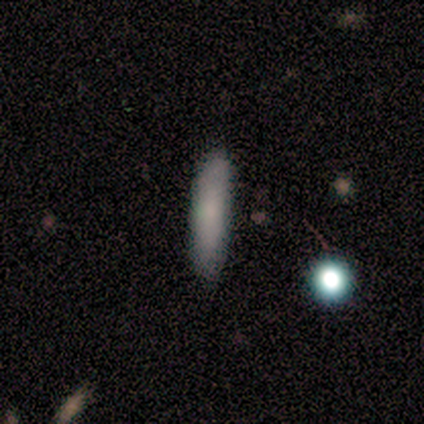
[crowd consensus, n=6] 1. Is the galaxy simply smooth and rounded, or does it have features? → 100% smooth, 0% featured or disk, 0% star or artifact.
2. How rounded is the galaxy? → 83% cigar-shaped, 17% in between, 0% round.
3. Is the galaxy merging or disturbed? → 100% none, 0% minor disturbance, 0% major disturbance, 0% merger.